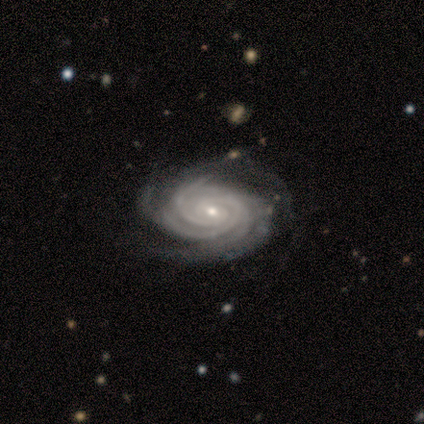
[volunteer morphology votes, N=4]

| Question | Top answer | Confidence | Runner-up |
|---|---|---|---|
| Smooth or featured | featured or disk | 100% | — |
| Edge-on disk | no | 100% | — |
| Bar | no | 100% | — |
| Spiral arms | yes | 100% | — |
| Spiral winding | tight | 100% | — |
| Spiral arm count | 2 | 50% | tied: more than 4 (50%) |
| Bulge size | small | 75% | moderate (25%) |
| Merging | none | 100% | — |